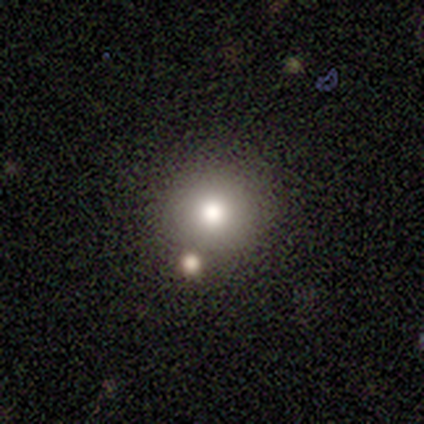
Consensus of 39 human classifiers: Q: Smooth or featured?
A: smooth (77%); runner-up: star or artifact (15%)
Q: How rounded?
A: round (100%)
Q: Merging?
A: none (85%); runner-up: minor disturbance (9%)